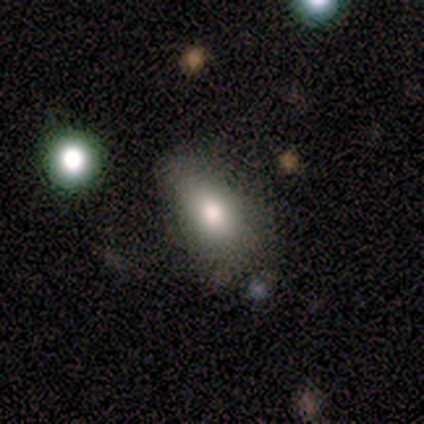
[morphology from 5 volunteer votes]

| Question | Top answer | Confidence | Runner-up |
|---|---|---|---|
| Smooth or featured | smooth | 60% | featured or disk (20%) |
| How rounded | in between | 100% | — |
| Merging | minor disturbance | 75% | none (25%) |